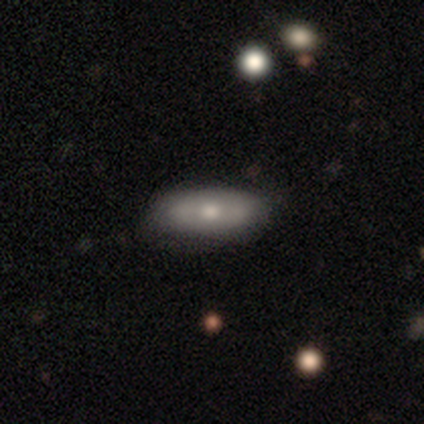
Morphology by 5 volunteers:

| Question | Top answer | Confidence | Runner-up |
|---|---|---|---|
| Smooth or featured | featured or disk | 60% | smooth (40%) |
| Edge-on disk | yes | 67% | no (33%) |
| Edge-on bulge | rounded | 100% | — |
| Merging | none | 100% | — |